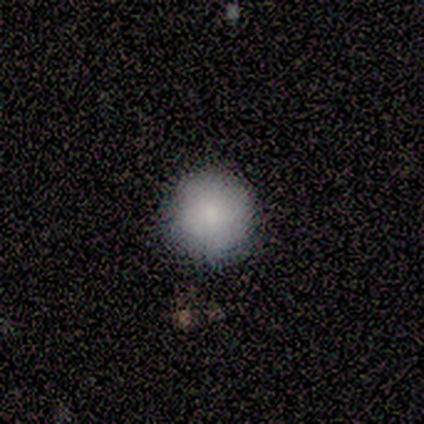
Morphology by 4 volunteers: Overall: smooth (100%). How rounded: round (100%). Merging: none (100%).